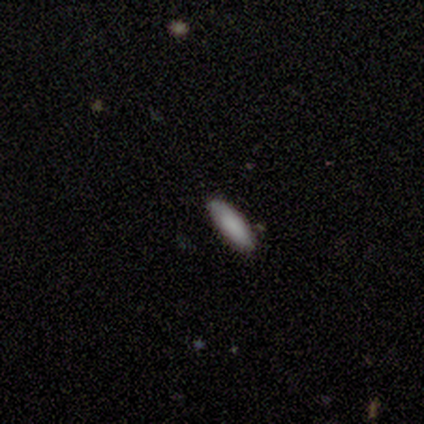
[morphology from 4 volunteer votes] Q: Smooth or featured?
A: smooth (100%)
Q: How rounded?
A: in between (50%); tied with: cigar-shaped (50%)
Q: Merging?
A: none (75%); runner-up: minor disturbance (25%)